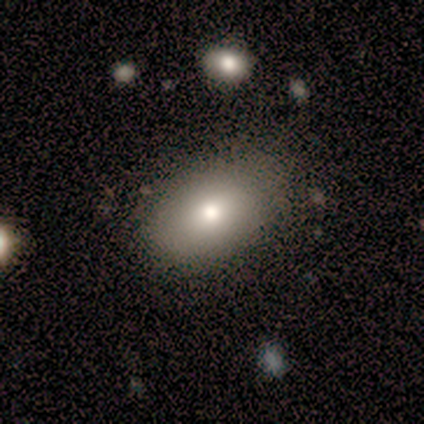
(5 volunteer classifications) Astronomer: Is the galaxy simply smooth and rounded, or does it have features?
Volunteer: smooth — 80%.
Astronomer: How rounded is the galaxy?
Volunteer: in between — 100%.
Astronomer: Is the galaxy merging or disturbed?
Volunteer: none — 100%.